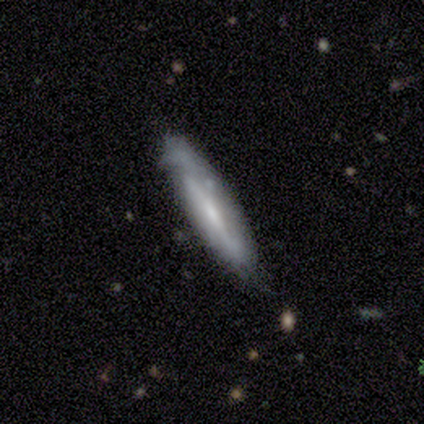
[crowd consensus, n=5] Smooth or featured?
  - featured or disk: 60% *
  - smooth: 40%
  - star or artifact: 0%
Edge-on disk?
  - yes: 100% *
  - no: 0%
Edge-on bulge?
  - rounded: 100% *
  - boxy: 0%
  - none: 0%
Merging?
  - none: 80% *
  - minor disturbance: 20%
  - major disturbance: 0%
  - merger: 0%